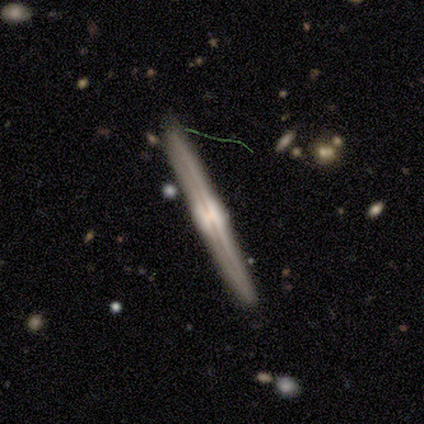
Smooth or featured: featured or disk — 83% (smooth — 17%)
Edge-on disk: yes — 100%
Edge-on bulge: rounded — 80% (boxy — 20%)
Merging: none — 100%